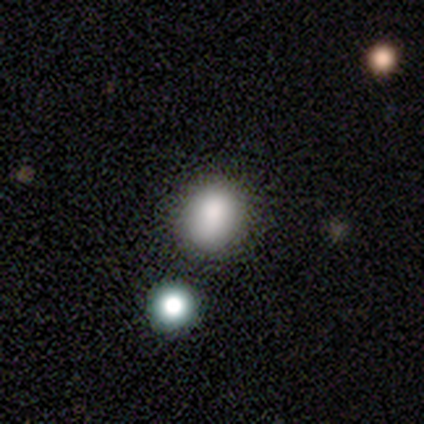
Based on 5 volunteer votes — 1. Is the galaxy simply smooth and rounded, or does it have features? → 60% smooth, 20% featured or disk, 20% star or artifact.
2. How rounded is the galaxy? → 67% in between, 33% round, 0% cigar-shaped.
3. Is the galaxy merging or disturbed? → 75% none, 25% merger, 0% minor disturbance, 0% major disturbance.